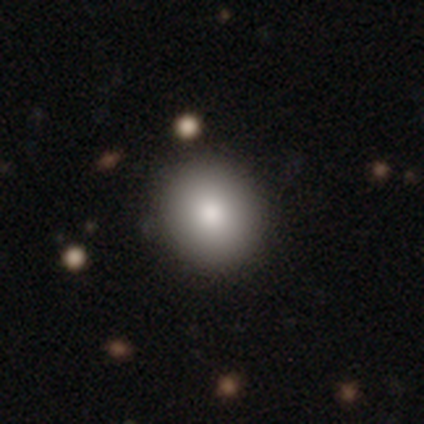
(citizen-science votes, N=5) smooth-or-featured: smooth: 100% | featured or disk: 0% | star or artifact: 0%
  how-rounded: round: 80% | in between: 20% | cigar-shaped: 0%
  merging: none: 100% | minor disturbance: 0% | major disturbance: 0% | merger: 0%